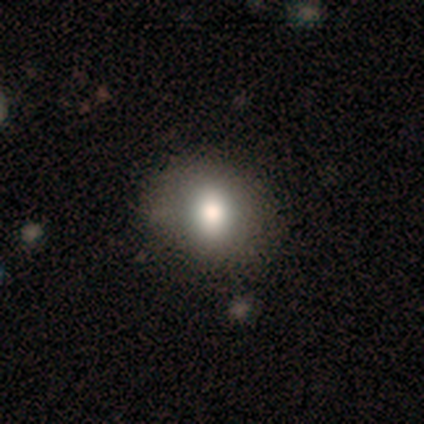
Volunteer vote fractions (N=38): Q: Smooth or featured?
A: smooth (66%); runner-up: featured or disk (26%)
Q: How rounded?
A: in between (64%); runner-up: round (36%)
Q: Merging?
A: none (54%); runner-up: minor disturbance (14%)